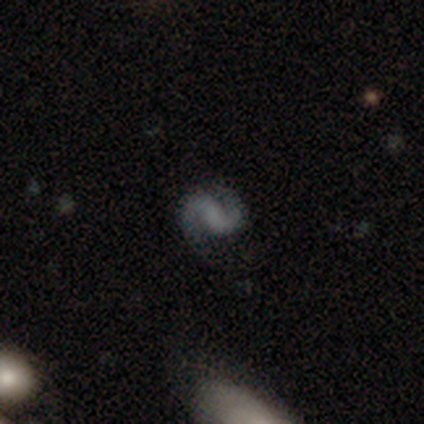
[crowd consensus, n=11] Overall: featured or disk (100%). Edge-on disk: no (100%). Bar: weak (55%; no 27%). Spiral arms: yes (100%). Spiral arm count: 2 (100%). Spiral winding: medium (64%; loose 27%). Bulge size: none (82%). Merging: none (91%).